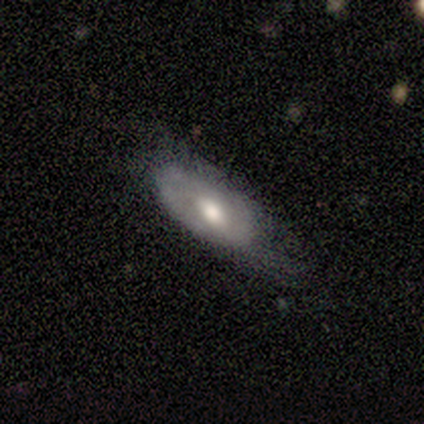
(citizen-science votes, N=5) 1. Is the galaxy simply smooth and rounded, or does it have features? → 100% smooth, 0% featured or disk, 0% star or artifact.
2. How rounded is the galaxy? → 80% in between, 20% cigar-shaped, 0% round.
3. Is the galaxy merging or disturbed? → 60% minor disturbance, 40% none, 0% major disturbance, 0% merger.